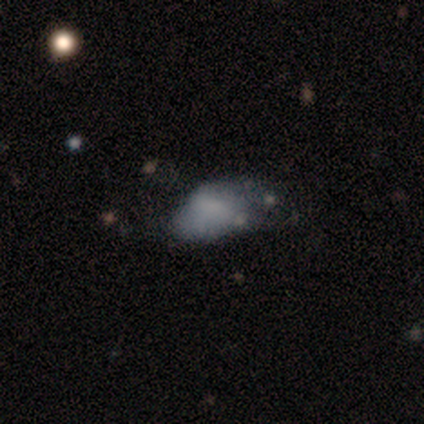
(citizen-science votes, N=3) A featured or disk galaxy (67%) with a weak bar (50%, tied with no), loose (100%) spiral arms (50%, tied with no) and a small central bulge (50%, tied with none).

Vote fractions:
- Smooth or featured? featured or disk: 67% / smooth: 33% / star or artifact: 0%
- Edge-on disk? no: 100% / yes: 0%
- Bar? weak: 50% (tied) / no: 50% (tied) / strong: 0%
- Spiral arms? yes: 50% (tied) / no: 50% (tied)
- Spiral winding? loose: 100% / tight: 0% / medium: 0%
- Spiral arm count? can't tell: 100% / 1: 0% / 2: 0% / 3: 0% / 4: 0% / more than 4: 0%
- Bulge size? small: 50% (tied) / none: 50% (tied) / dominant: 0% / large: 0% / moderate: 0%
- Merging? none: 33% (tied) / minor disturbance: 33% (tied) / major disturbance: 33% (tied) / merger: 0%